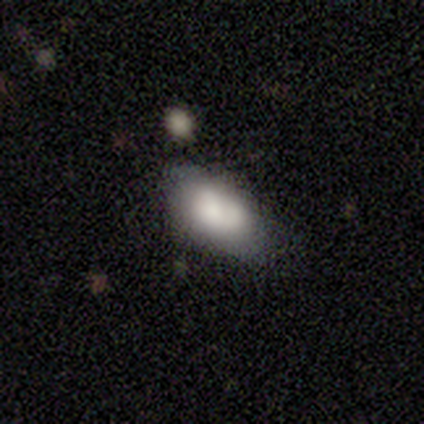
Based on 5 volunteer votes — Smooth or featured? smooth (100%)
How rounded? in between (100%)
Merging? none (40%, tied with minor disturbance)